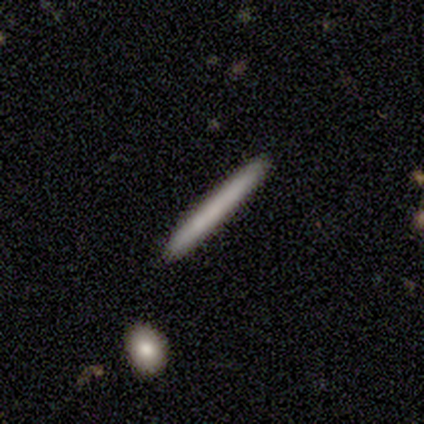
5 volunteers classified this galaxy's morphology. Smooth or featured? smooth (60%)
How rounded? cigar-shaped (100%)
Merging? none (100%)